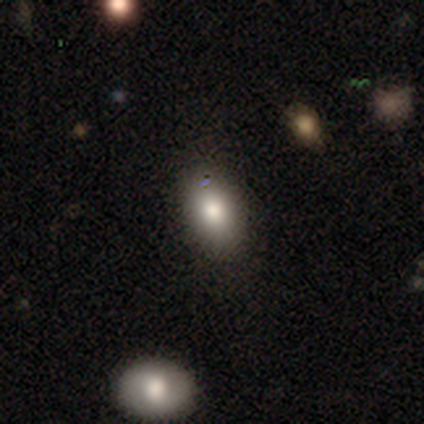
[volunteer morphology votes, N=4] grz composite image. It shows a smooth galaxy with no disk features (50%) that is in between round and cigar-shaped (100%). Merging: none (67%).